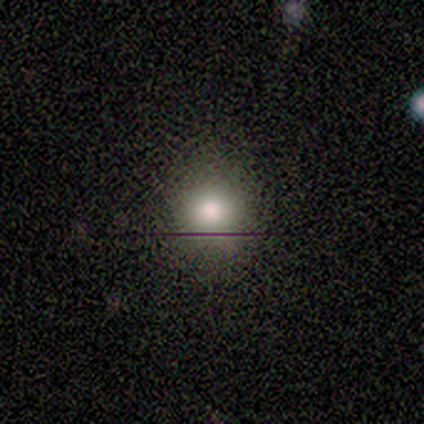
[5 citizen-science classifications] A smooth galaxy with no disk features (60%) that is round (100%).

Vote fractions:
- Smooth or featured? smooth: 60% / star or artifact: 40% / featured or disk: 0%
- How rounded? round: 100% / in between: 0% / cigar-shaped: 0%
- Merging? none: 100% / minor disturbance: 0% / major disturbance: 0% / merger: 0%